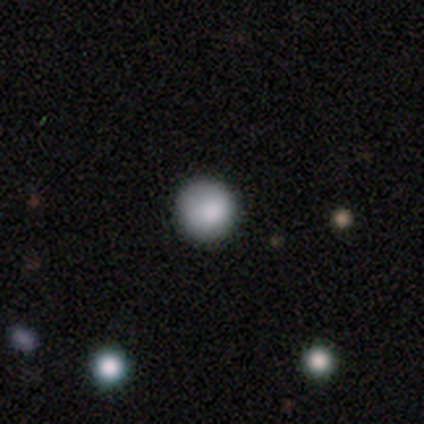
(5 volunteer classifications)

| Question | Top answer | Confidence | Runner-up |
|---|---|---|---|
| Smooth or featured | smooth | 80% | star or artifact (20%) |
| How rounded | round | 100% | — |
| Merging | none | 100% | — |